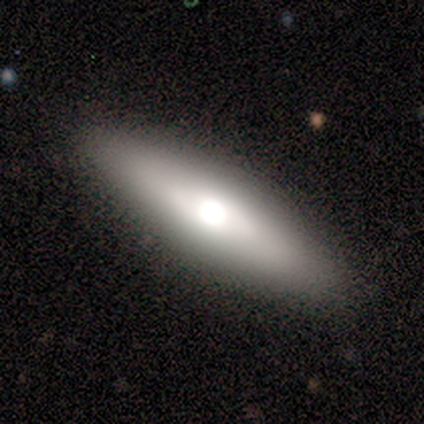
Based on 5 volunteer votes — Volunteers were most divided on "smooth or featured": smooth: 60%, featured or disk: 40%, star or artifact: 0%. More confident: merging — none (80%); how rounded — in between (67%).